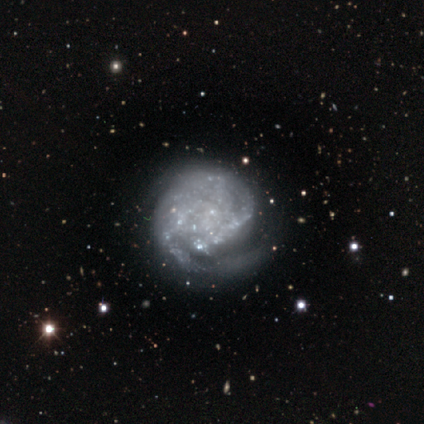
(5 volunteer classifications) Q: Smooth or featured?
A: featured or disk (100%)
Q: Edge-on disk?
A: no (100%)
Q: Bar?
A: no (100%)
Q: Spiral arms?
A: yes (80%); runner-up: no (20%)
Q: Spiral winding?
A: tight (75%); runner-up: medium (25%)
Q: Spiral arm count?
A: 2 (50%); runner-up: 1 (25%)
Q: Bulge size?
A: none (100%)
Q: Merging?
A: none (80%); runner-up: minor disturbance (20%)